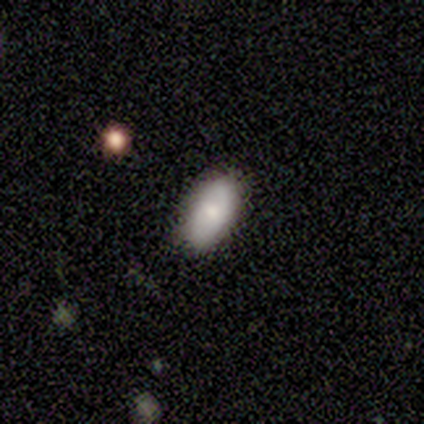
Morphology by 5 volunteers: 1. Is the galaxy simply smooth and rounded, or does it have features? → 60% featured or disk, 20% smooth, 20% star or artifact.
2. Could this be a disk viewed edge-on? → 67% no, 33% yes.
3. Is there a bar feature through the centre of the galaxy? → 100% no, 0% strong, 0% weak.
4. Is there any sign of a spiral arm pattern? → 100% no, 0% yes.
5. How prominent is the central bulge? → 50% dominant (tied), 50% moderate (tied), 0% large, 0% small, 0% none.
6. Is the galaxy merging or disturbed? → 75% none, 25% minor disturbance, 0% major disturbance, 0% merger.